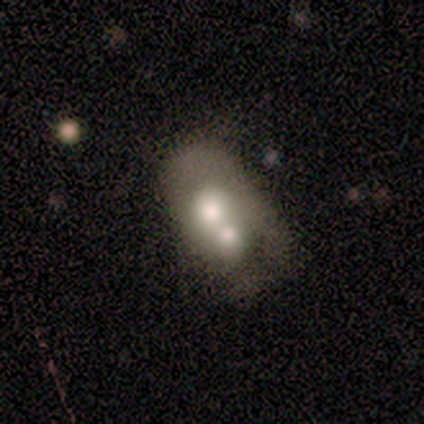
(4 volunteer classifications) smooth 50%, featured or disk 25%, star or artifact 25%. Down the decision tree: how rounded — in between (100%); merging — merger (100%).